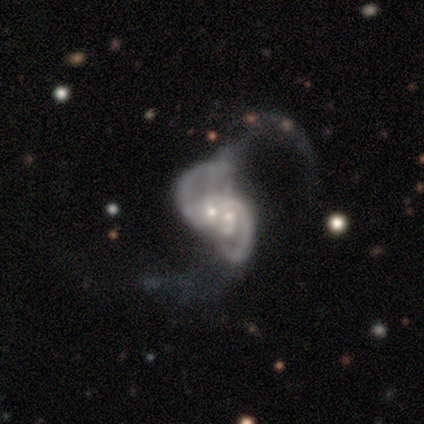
This is clearly a featured or disk galaxy (89%). It is clearly not viewed edge-on (100%). Bar: likely no (69%). Spiral arm pattern: clearly yes (81%). Spiral arm count: possibly 2 (54%). Spiral winding: possibly loose (50%). Central bulge: possibly moderate (53%). Merging: likely merger (68%).